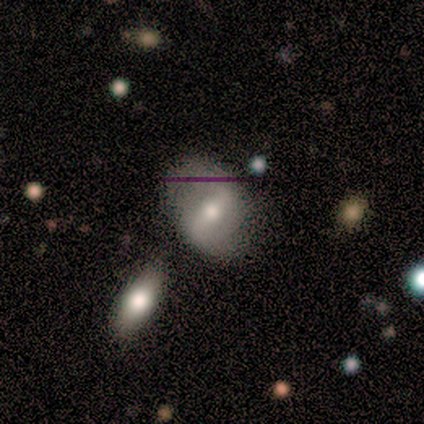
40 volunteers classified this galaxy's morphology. Smooth or featured?
  - featured or disk: 50% *
  - smooth: 38%
  - star or artifact: 12%
Edge-on disk?
  - no: 100% *
  - yes: 0%
Bar?
  - strong: 55% *
  - weak: 35%
  - no: 10%
Spiral arms?
  - yes: 65% *
  - no: 35%
Spiral winding?
  - loose: 77% *
  - medium: 23%
  - tight: 0%
Spiral arm count?
  - 2: 100% *
  - 1: 0%
  - 3: 0%
  - 4: 0%
  - more than 4: 0%
  - can't tell: 0%
Bulge size?
  - moderate: 75% *
  - small: 15%
  - large: 10%
  - dominant: 0%
  - none: 0%
Merging?
  - none: 69% *
  - merger: 14%
  - minor disturbance: 9%
  - major disturbance: 9%